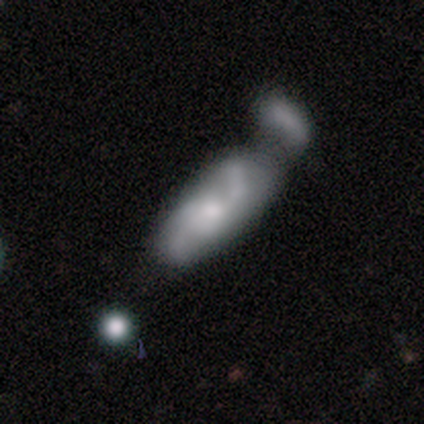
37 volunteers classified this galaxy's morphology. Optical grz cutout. It shows a featured or disk galaxy (59%) with no bar (56%), 2 (92%) loose (54%) spiral arms (72%) and a moderate central bulge (50%). Merging: merger (47%).